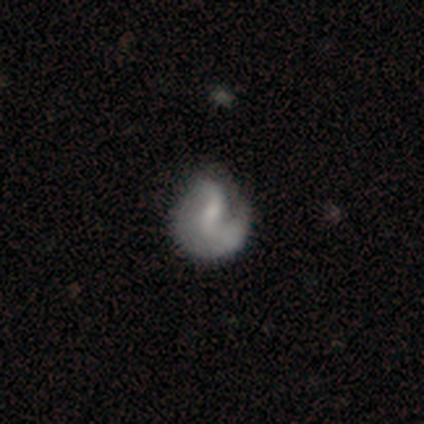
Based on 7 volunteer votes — This appears to be a featured or disk galaxy (57%) with a weak bar (75%), 1 (50%, tied with 2) medium (50%, tied with loose) spiral arms (100%) and a small central bulge (50%, tied with none). Merging: minor disturbance (43%).